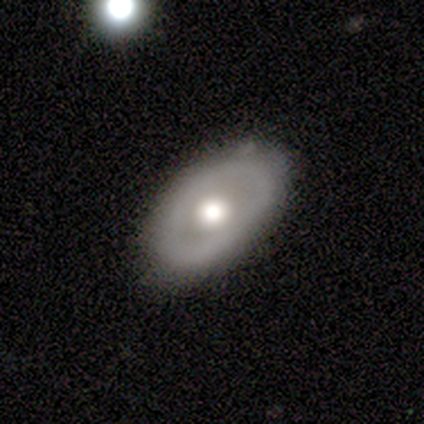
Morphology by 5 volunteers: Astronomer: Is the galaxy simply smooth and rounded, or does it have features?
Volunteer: smooth — 40%, tied with featured or disk at 40%.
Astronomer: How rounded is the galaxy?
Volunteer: round — 50%, tied with in between at 50%.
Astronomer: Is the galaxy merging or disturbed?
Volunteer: none — 75%.